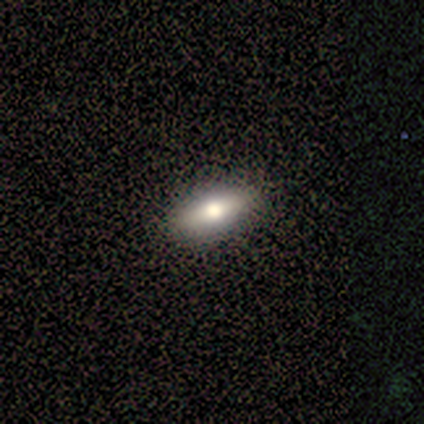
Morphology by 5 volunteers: Overall: smooth (60%; featured or disk 20%). How rounded: in between (67%; round 33%). Merging: none (100%).